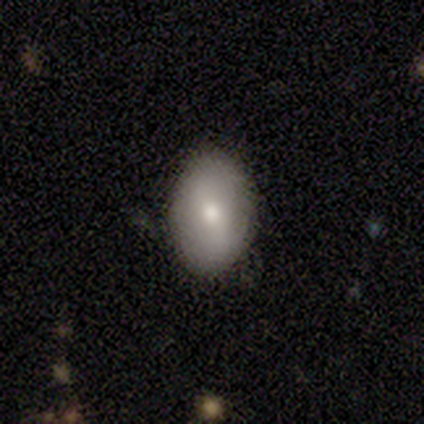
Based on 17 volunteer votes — Smooth or featured? 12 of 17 (71%) said smooth. How rounded? 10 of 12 (83%) said in between. Merging? 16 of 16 (100%) said none.